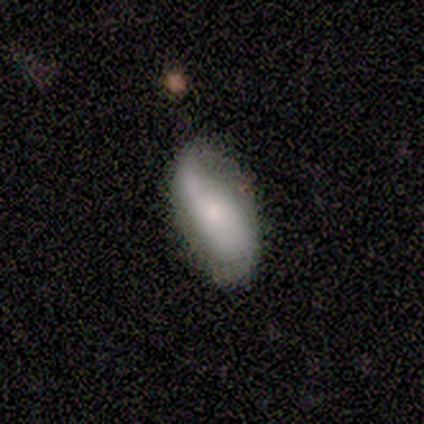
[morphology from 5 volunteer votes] A featured or disk galaxy (60%) with a weak bar (67%), 2 (67%) medium (67%) spiral arms (100%) and a moderate central bulge (100%).

Vote fractions:
- Smooth or featured? featured or disk: 60% / smooth: 40% / star or artifact: 0%
- Edge-on disk? no: 100% / yes: 0%
- Bar? weak: 67% / no: 33% / strong: 0%
- Spiral arms? yes: 100% / no: 0%
- Spiral winding? medium: 67% / loose: 33% / tight: 0%
- Spiral arm count? 2: 67% / 1: 33% / 3: 0% / 4: 0% / more than 4: 0% / can't tell: 0%
- Bulge size? moderate: 100% / dominant: 0% / large: 0% / small: 0% / none: 0%
- Merging? none: 80% / minor disturbance: 20% / major disturbance: 0% / merger: 0%